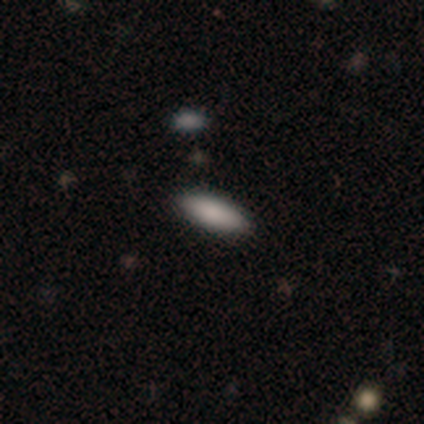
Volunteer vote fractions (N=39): Smooth or featured: smooth — 87% (featured or disk — 13%)
How rounded: in between — 68% (cigar-shaped — 32%)
Merging: none — 69% (minor disturbance — 3%)